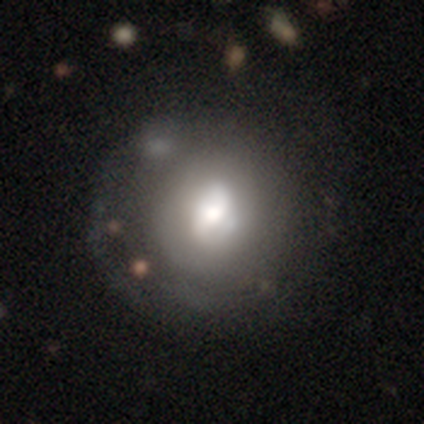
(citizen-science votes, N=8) Volunteers were most divided on "spiral winding" (3-way tie): tight: 33%, medium: 33%, loose: 33%; "bulge size" (4-way tie): dominant: 25%, moderate: 25%, small: 25%, none: 25%, large: 0%. More confident: edge-on disk — no (100%); merging — none (86%); bar — no (75%); spiral arms — yes (75%); spiral arm count — 2 (67%); smooth or featured — featured or disk (50%).